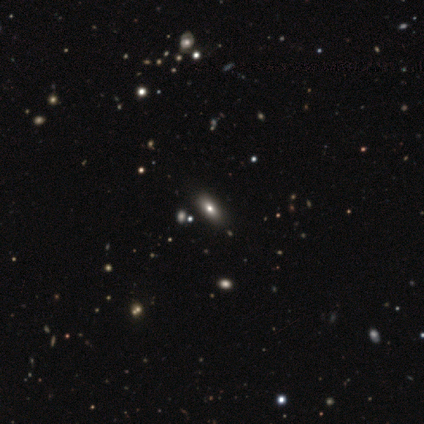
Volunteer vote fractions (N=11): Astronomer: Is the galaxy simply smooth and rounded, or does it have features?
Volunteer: smooth — 45%, tied with star or artifact at 45%.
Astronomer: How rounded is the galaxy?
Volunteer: in between — 80%.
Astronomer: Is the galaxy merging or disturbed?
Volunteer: none — 83%.